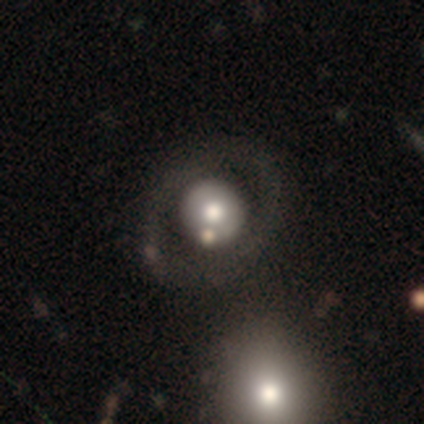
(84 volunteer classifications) Q: Smooth or featured?
A: smooth (46%); runner-up: featured or disk (42%)
Q: How rounded?
A: round (85%); runner-up: in between (15%)
Q: Merging?
A: none (74%); runner-up: minor disturbance (12%)